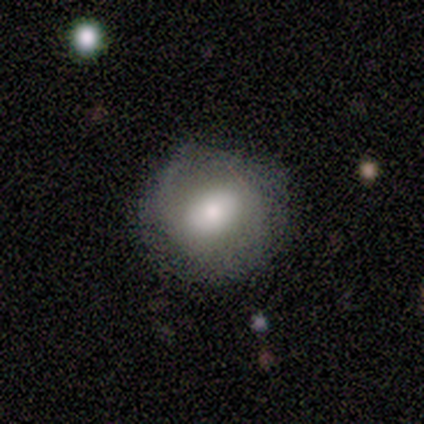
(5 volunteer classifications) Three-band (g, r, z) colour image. It shows a smooth galaxy with no disk features (60%) that is round (100%). Merging: none (100%).